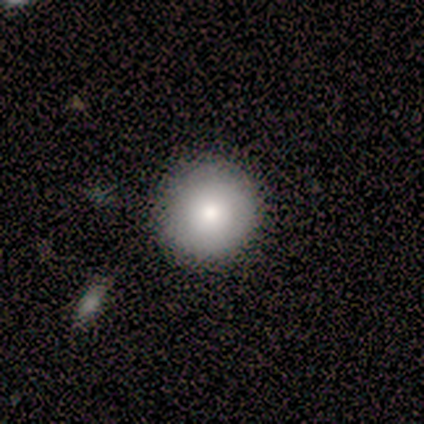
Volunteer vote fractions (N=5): Q: Smooth or featured?
A: smooth (100%)
Q: How rounded?
A: round (100%)
Q: Merging?
A: none (80%); runner-up: minor disturbance (20%)